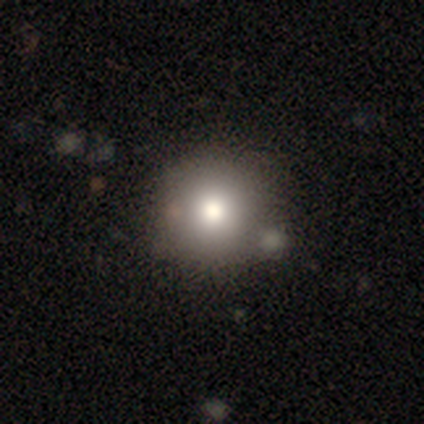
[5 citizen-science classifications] This is clearly a smooth galaxy (80%). How rounded: clearly round (100%). Merging: clearly none (100%).